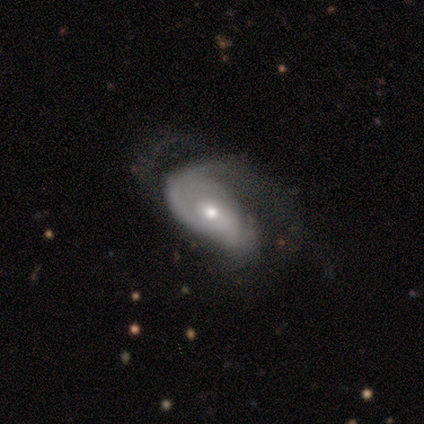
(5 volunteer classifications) featured or disk 60%, smooth 40%, star or artifact 0%. Down the decision tree: edge-on disk — no (100%); bar — no (100%); spiral arms — yes (67%); spiral arm count — 1 (100%); spiral winding — tight (100%); bulge size — moderate (67%); merging — major disturbance (60%).